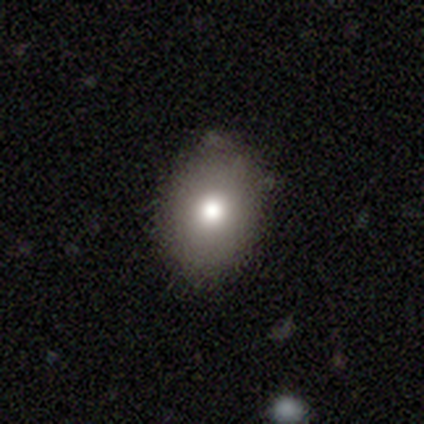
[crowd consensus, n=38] This is clearly a smooth galaxy (82%). How rounded: likely in between (74%). Merging: clearly none (83%).